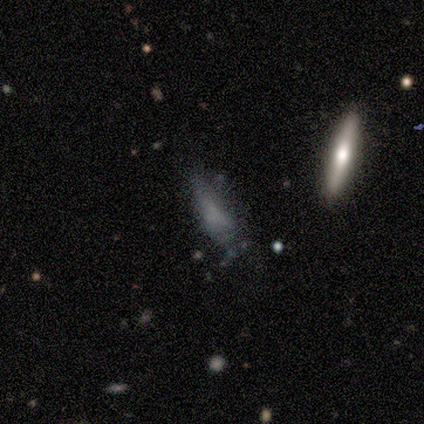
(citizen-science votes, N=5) Smooth or featured? 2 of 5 (40%, tied with featured or disk) said smooth. How rounded? 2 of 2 (100%) said in between. Merging? 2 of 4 (50%, tied with minor disturbance) said none.